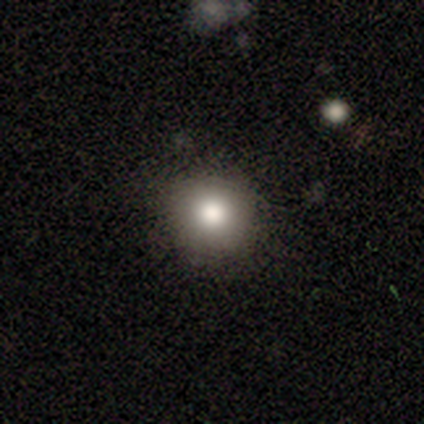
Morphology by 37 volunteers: smooth-or-featured: smooth: 81% | star or artifact: 11% | featured or disk: 8%
  how-rounded: round: 93% | in between: 7% | cigar-shaped: 0%
  merging: none: 91% | minor disturbance: 9% | major disturbance: 0% | merger: 0%